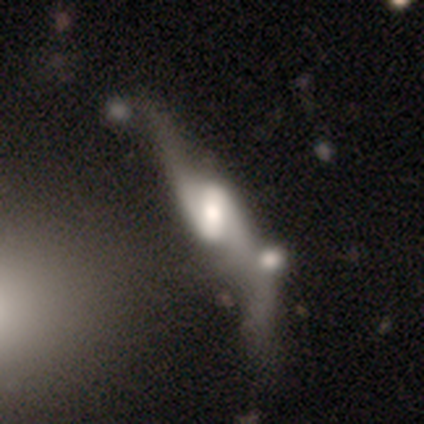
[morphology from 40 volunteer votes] Smooth or featured? 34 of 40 (85%) said featured or disk. Edge-on disk? 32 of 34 (94%) said no. Bar? 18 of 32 (56%) said strong. Spiral arms? 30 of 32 (94%) said yes. Spiral winding? 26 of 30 (87%) said loose. Spiral arm count? 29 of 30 (97%) said 2. Bulge size? 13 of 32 (41%) said large. Merging? 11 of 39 (28%) said merger.